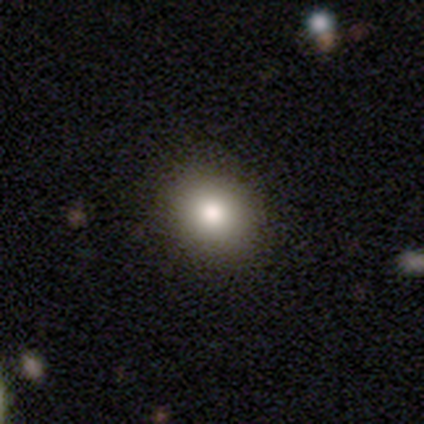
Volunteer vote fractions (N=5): Volunteers were most divided on "smooth or featured": smooth: 60%, star or artifact: 40%, featured or disk: 0%. More confident: merging — none (100%); how rounded — round (67%).